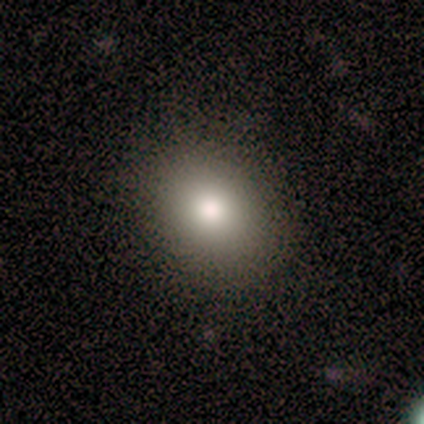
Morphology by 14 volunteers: Overall: smooth (93%). How rounded: round (69%; in between 31%). Merging: none (93%).